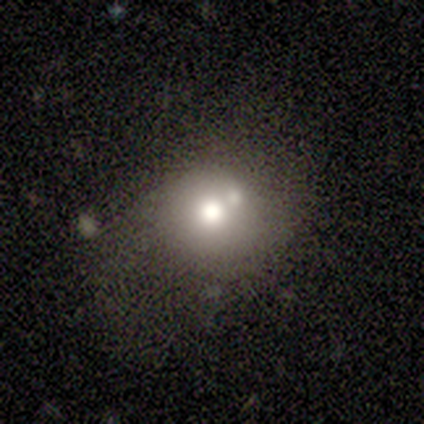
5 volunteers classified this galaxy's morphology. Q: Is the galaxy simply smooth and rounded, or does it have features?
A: smooth — 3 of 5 (60%).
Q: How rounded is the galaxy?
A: round — 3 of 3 (100%).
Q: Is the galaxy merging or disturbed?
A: merger — 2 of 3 (67%).